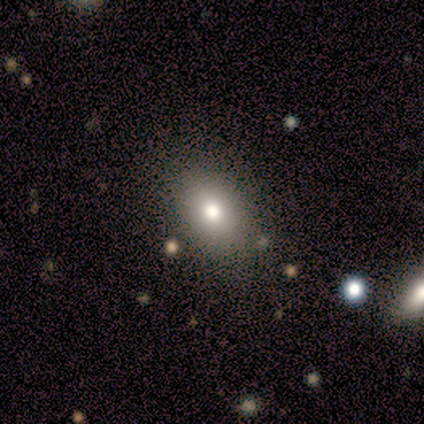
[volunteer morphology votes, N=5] type=smooth (80%); roundness=in between (100%); merging=none (80%).